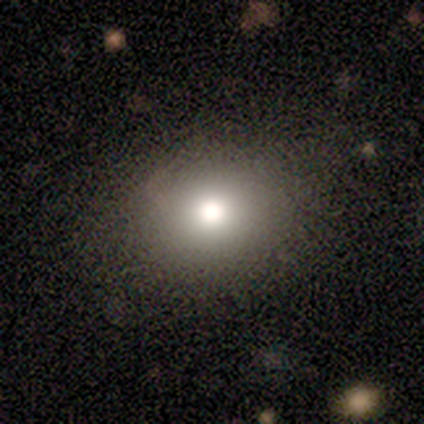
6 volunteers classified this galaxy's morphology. Q: Smooth or featured?
A: smooth (50%); runner-up: featured or disk (33%)
Q: How rounded?
A: round (100%)
Q: Merging?
A: none (80%); runner-up: major disturbance (20%)